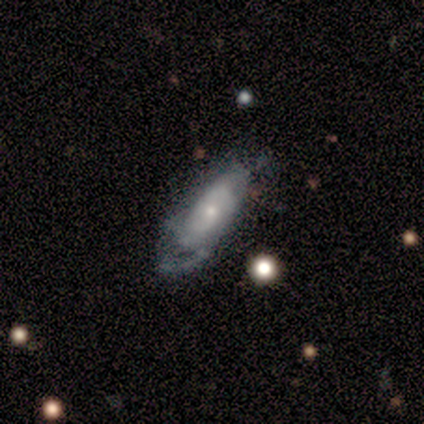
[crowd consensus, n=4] Smooth or featured?
  - smooth: 50% * (tied)
  - featured or disk: 50% * (tied)
  - star or artifact: 0%
How rounded?
  - in between: 50% * (tied)
  - cigar-shaped: 50% * (tied)
  - round: 0%
Merging?
  - major disturbance: 50% *
  - none: 25%
  - minor disturbance: 25%
  - merger: 0%